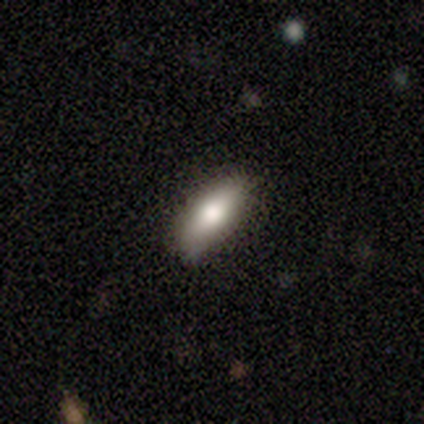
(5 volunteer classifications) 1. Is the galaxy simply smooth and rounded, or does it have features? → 60% smooth, 20% featured or disk, 20% star or artifact.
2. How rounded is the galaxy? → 67% in between, 33% cigar-shaped, 0% round.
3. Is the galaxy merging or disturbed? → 100% none, 0% minor disturbance, 0% major disturbance, 0% merger.